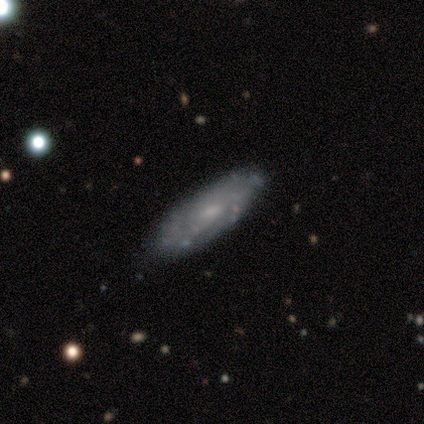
This is likely a featured or disk galaxy (60%). It is clearly not viewed edge-on (100%). Bar: marginally strong (33%, tied with weak and no). Spiral arm pattern: clearly yes (100%). Spiral arm count: likely can't tell (67%). Spiral winding: likely medium (67%). Central bulge: likely moderate (67%). Merging: clearly none (100%).